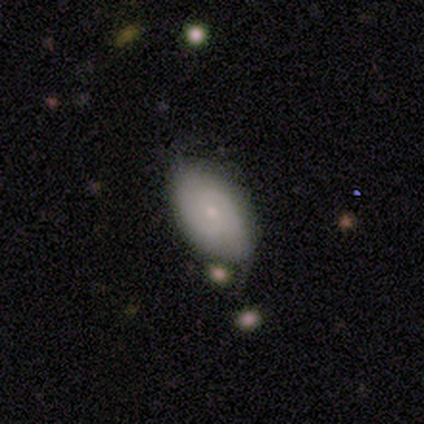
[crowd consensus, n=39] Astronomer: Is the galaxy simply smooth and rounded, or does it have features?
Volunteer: smooth — 56% (runner-up: featured or disk, 33%).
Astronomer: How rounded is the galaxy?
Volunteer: in between — 95%.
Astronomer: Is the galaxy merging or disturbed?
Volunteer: minor disturbance — 54% (runner-up: none, 40%).